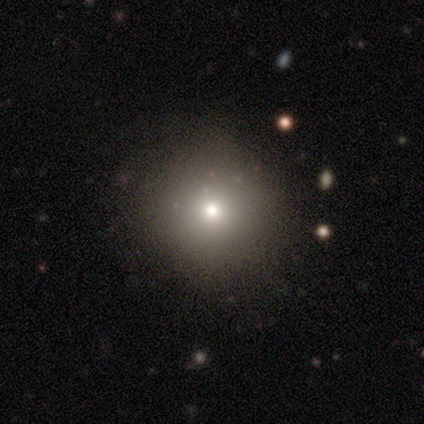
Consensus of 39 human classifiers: Volunteers were most divided on "smooth or featured": smooth: 72%, featured or disk: 15%, star or artifact: 13%. More confident: how rounded — round (96%); merging — none (88%).